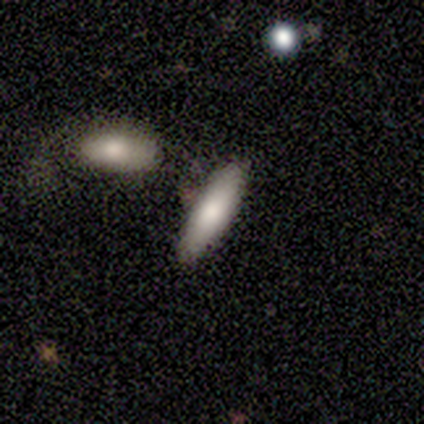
smooth_or_featured: smooth (p=0.50) [tied with: star or artifact p=0.50]
how_rounded: in between (p=0.50) [tied with: cigar-shaped p=0.50]
merging: none (p=1.00)